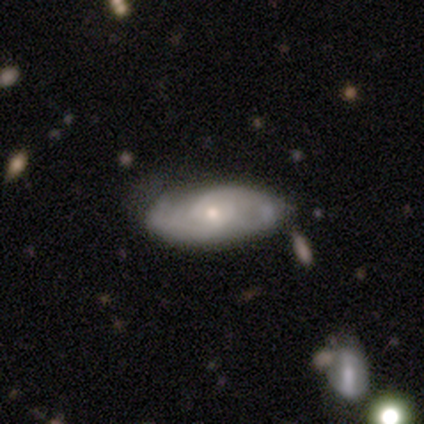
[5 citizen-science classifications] Volunteers were most divided on "spiral arm count" (2-way tie): 2: 50%, can't tell: 50%, 1: 0%, 3: 0%, 4: 0%, more than 4: 0%; "merging" (2-way tie): none: 50%, minor disturbance: 50%, major disturbance: 0%, merger: 0%. More confident: bar — no (100%); spiral arms — yes (100%); spiral winding — tight (100%); bulge size — small (100%); edge-on disk — no (67%); smooth or featured — featured or disk (60%).